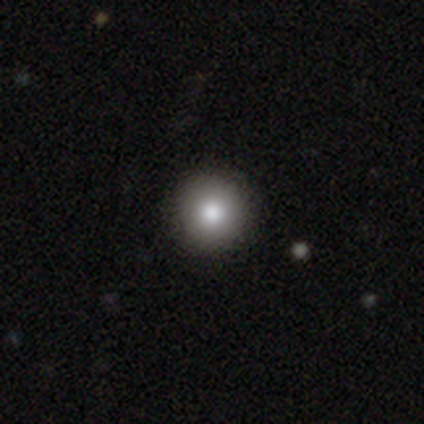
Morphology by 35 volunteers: A smooth galaxy with no disk features (69%) that is round (100%).

Vote fractions:
- Smooth or featured? smooth: 69% / featured or disk: 17% / star or artifact: 14%
- How rounded? round: 100% / in between: 0% / cigar-shaped: 0%
- Merging? none: 97% / minor disturbance: 3% / major disturbance: 0% / merger: 0%